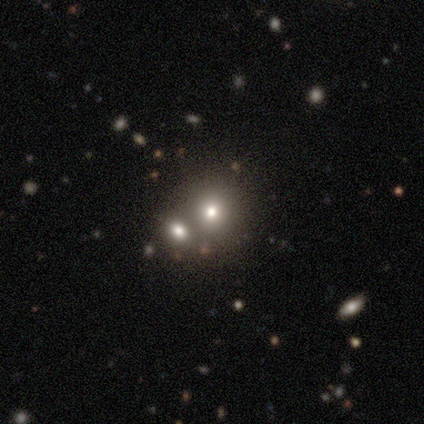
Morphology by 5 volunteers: smooth-or-featured: smooth: 60% | star or artifact: 40% | featured or disk: 0%
  how-rounded: round: 100% | in between: 0% | cigar-shaped: 0%
  merging: merger: 67% | none: 33% | minor disturbance: 0% | major disturbance: 0%